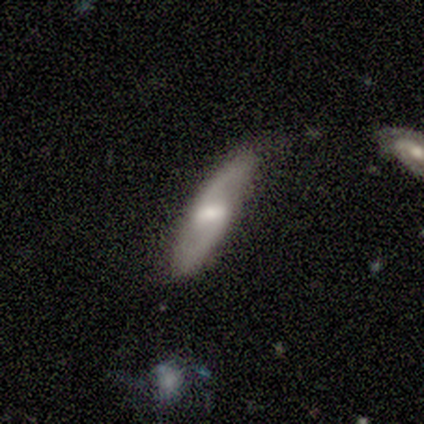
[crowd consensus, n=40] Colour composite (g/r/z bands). It shows a featured or disk galaxy (78%) with a weak bar (58%), 2 (96%) loose (64%) spiral arms (96%) and a moderate central bulge (38%, tied with small). Merging: none (69%).